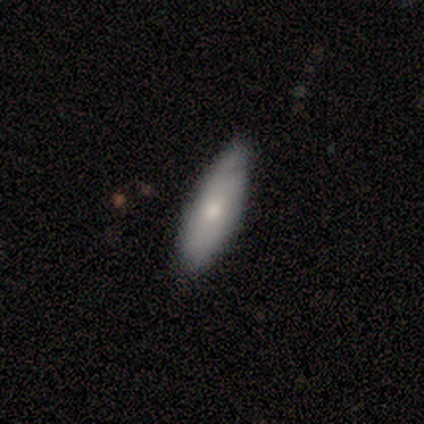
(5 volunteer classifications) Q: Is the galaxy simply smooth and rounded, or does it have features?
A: smooth — 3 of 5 (60%).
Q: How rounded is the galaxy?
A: in between — 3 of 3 (100%).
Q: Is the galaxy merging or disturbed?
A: none — 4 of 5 (80%).